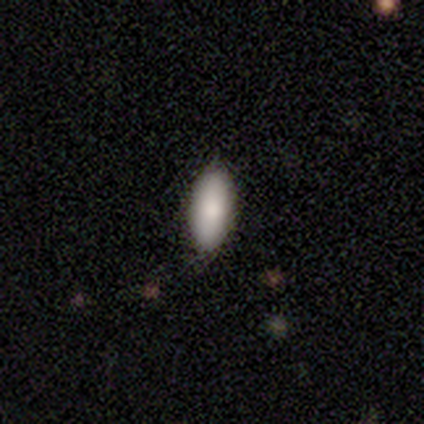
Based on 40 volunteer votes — Volunteers were most divided on "how rounded": in between: 79%, cigar-shaped: 21%, round: 0%. More confident: smooth or featured — smooth (95%); merging — none (89%).